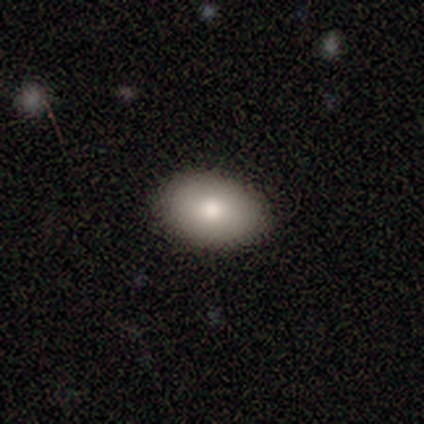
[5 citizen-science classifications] A smooth galaxy with no disk features (80%) that is in between round and cigar-shaped (100%). Merging: none (100%).